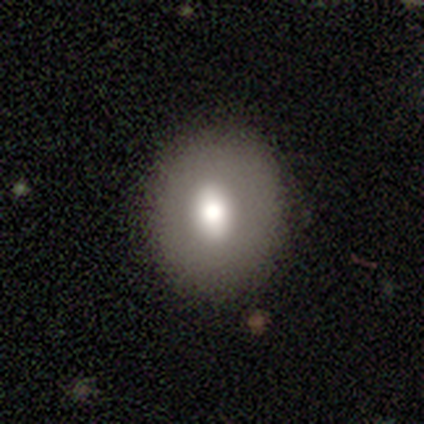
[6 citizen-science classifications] Volunteers were most divided on "how rounded" (2-way tie): round: 50%, in between: 50%, cigar-shaped: 0%. More confident: smooth or featured — smooth (100%); merging — none (83%).